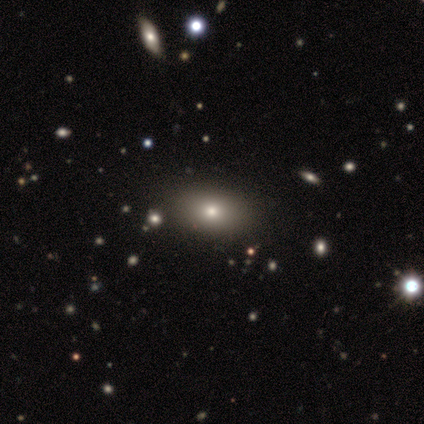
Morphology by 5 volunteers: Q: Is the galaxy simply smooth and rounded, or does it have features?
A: smooth — 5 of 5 (100%).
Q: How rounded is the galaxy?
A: in between — 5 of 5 (100%).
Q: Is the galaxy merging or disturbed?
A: none — 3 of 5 (60%).